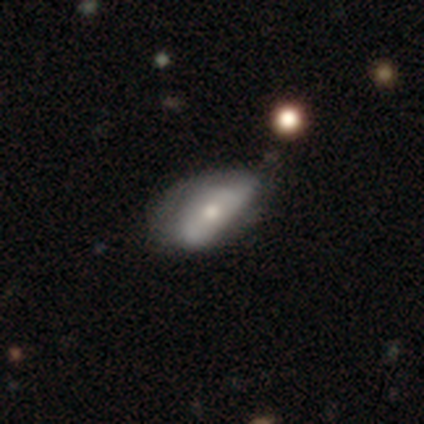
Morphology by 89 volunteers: smooth_or_featured: smooth (p=0.52) [alt: featured or disk p=0.39]
how_rounded: in between (p=0.93) [alt: cigar-shaped p=0.07]
merging: minor disturbance (p=0.42) [alt: none p=0.41]